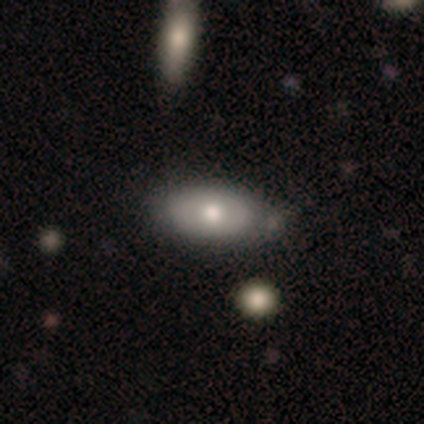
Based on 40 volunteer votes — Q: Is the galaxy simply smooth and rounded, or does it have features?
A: smooth — 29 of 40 (72%).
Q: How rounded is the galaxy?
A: in between — 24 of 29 (83%).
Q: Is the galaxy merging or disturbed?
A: none — 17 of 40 (42%).